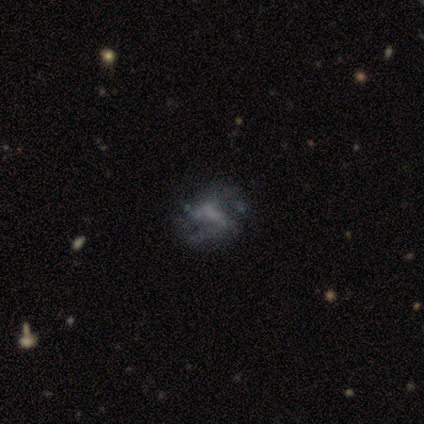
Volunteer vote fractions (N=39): Morphology: type=featured or disk (62%); edge-on=no (92%); bar=no (64%); spiral arms=yes (50%, tied with no); winding=loose (55%); arm count=2 (55%); bulge=none (59%); merging=none (56%).